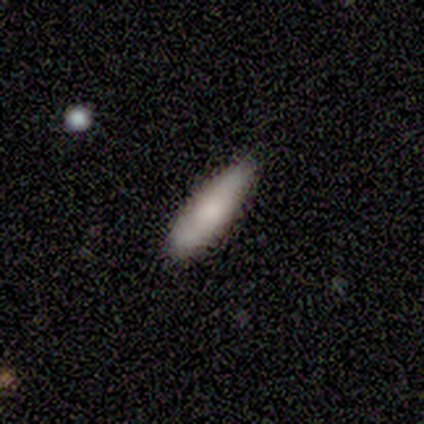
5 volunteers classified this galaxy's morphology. Q: Smooth or featured?
A: featured or disk (60%); runner-up: smooth (40%)
Q: Edge-on disk?
A: no (67%); runner-up: yes (33%)
Q: Bar?
A: no (100%)
Q: Spiral arms?
A: yes (50%); tied with: no (50%)
Q: Spiral winding?
A: medium (100%)
Q: Spiral arm count?
A: 1 (100%)
Q: Bulge size?
A: moderate (100%)
Q: Merging?
A: none (80%); runner-up: minor disturbance (20%)